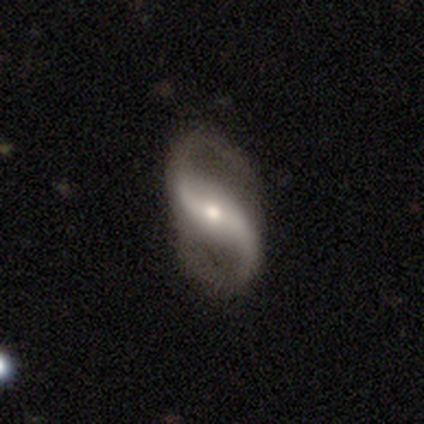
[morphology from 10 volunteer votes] This is clearly a featured or disk galaxy (80%). It is clearly not viewed edge-on (100%). Bar: marginally strong (38%, tied with no). Spiral arm pattern: clearly yes (88%). Spiral arm count: clearly 2 (100%). Spiral winding: clearly loose (86%). Central bulge: likely moderate (62%). Merging: likely none (70%).